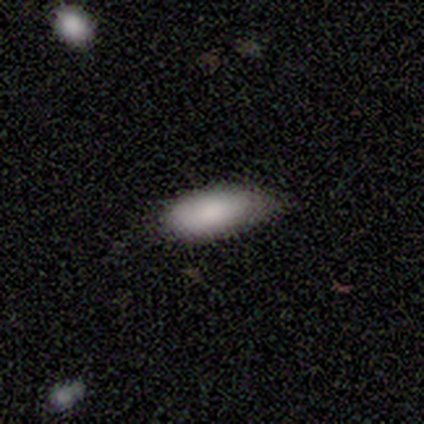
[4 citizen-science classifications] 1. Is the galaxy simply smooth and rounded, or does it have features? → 50% smooth (tied), 50% star or artifact (tied), 0% featured or disk.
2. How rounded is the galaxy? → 100% in between, 0% round, 0% cigar-shaped.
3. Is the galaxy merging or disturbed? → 100% none, 0% minor disturbance, 0% major disturbance, 0% merger.